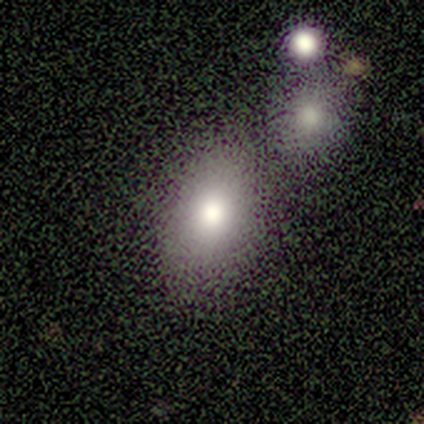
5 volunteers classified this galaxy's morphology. Volunteers were most divided on "smooth or featured" (2-way tie): smooth: 40%, featured or disk: 40%, star or artifact: 20%. More confident: how rounded — in between (100%); merging — merger (50%).